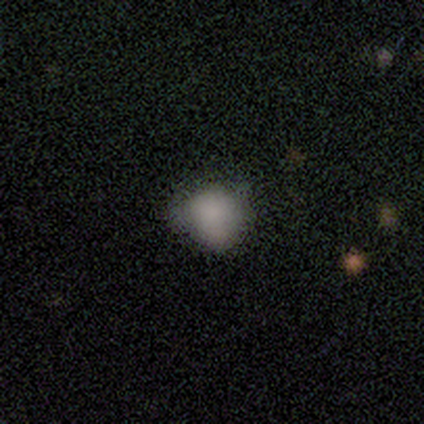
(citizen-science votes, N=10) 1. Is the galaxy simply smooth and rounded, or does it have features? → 80% smooth, 10% featured or disk, 10% star or artifact.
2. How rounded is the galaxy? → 50% round (tied), 50% in between (tied), 0% cigar-shaped.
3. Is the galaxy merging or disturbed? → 56% none, 33% minor disturbance, 11% major disturbance, 0% merger.